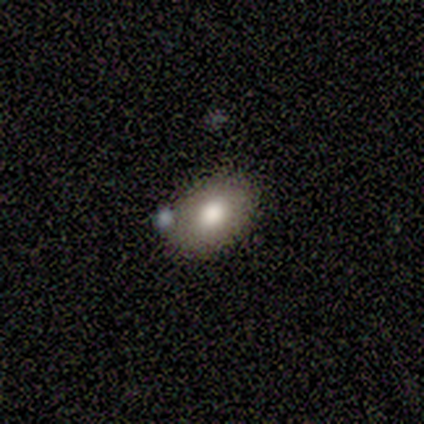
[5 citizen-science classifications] This is clearly a smooth galaxy (80%). How rounded: likely in between (75%). Merging: likely none (75%).